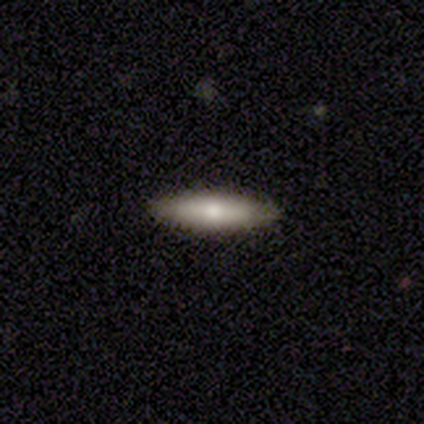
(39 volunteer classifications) Q: Smooth or featured?
A: smooth (79%); runner-up: featured or disk (18%)
Q: How rounded?
A: cigar-shaped (77%); runner-up: in between (23%)
Q: Merging?
A: none (87%); runner-up: minor disturbance (13%)